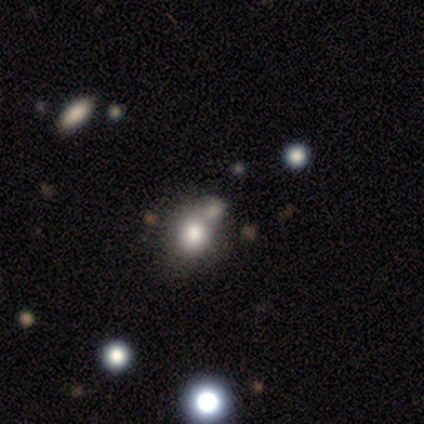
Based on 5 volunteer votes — A smooth galaxy with no disk features (60%) that is in between round and cigar-shaped (67%).

Vote fractions:
- Smooth or featured? smooth: 60% / star or artifact: 40% / featured or disk: 0%
- How rounded? in between: 67% / round: 33% / cigar-shaped: 0%
- Merging? minor disturbance: 67% / merger: 33% / none: 0% / major disturbance: 0%